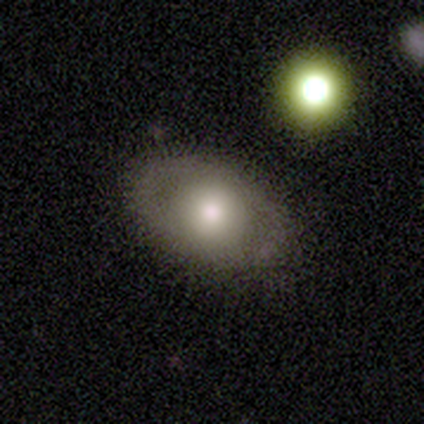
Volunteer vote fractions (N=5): smooth_or_featured: smooth (p=0.80) [alt: featured or disk p=0.20]
how_rounded: in between (p=0.75) [alt: round p=0.25]
merging: none (p=0.80) [alt: merger p=0.20]